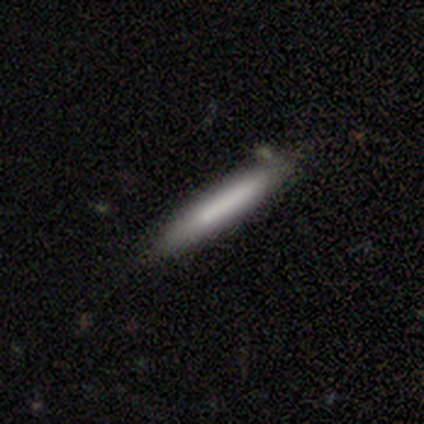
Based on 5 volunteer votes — Smooth or featured: smooth — 60% (featured or disk — 40%)
How rounded: cigar-shaped — 67% (in between — 33%)
Merging: none — 80% (minor disturbance — 20%)